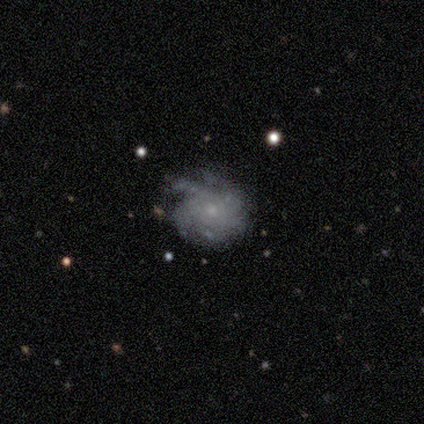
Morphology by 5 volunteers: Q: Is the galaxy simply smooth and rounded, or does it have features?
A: featured or disk — 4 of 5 (80%).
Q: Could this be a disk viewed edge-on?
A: no — 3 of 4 (75%).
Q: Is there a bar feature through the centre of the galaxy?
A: no — 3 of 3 (100%).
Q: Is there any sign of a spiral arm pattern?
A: yes — 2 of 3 (67%).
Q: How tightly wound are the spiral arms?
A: tight — 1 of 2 (50%, tied with medium).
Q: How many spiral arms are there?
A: more than 4 — 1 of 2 (50%, tied with can't tell).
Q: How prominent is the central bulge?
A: small — 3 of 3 (100%).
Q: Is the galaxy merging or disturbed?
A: none — 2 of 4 (50%).